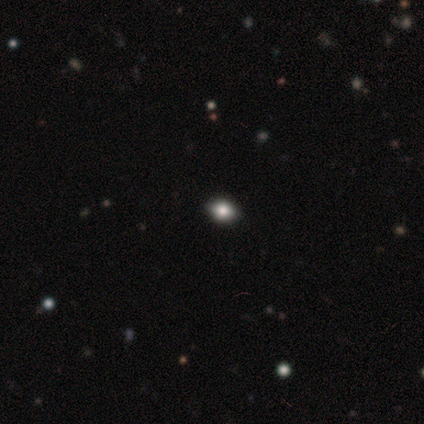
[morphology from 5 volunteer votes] This is likely a smooth galaxy (60%). How rounded: likely in between (67%). Merging: clearly none (100%).